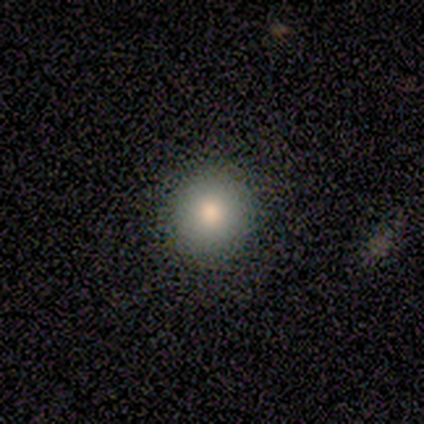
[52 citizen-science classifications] smooth 83%, featured or disk 15%, star or artifact 2%. Down the decision tree: how rounded — round (91%); merging — none (92%).